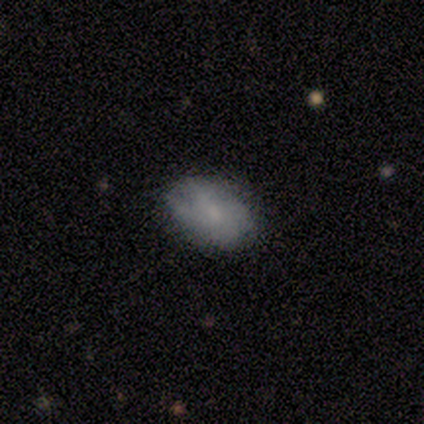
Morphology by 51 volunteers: Q: Smooth or featured?
A: smooth (49%); tied with: featured or disk (49%)
Q: How rounded?
A: in between (92%); runner-up: round (4%)
Q: Merging?
A: none (78%); runner-up: minor disturbance (20%)